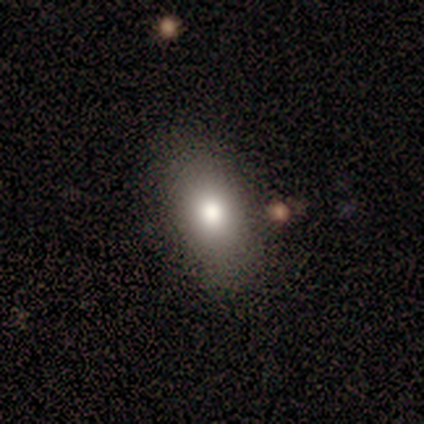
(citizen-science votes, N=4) smooth-or-featured: smooth: 75% | featured or disk: 25% | star or artifact: 0%
  how-rounded: in between: 67% | cigar-shaped: 33% | round: 0%
  merging: none: 100% | minor disturbance: 0% | major disturbance: 0% | merger: 0%